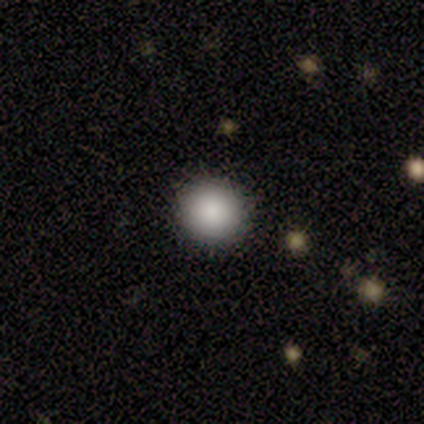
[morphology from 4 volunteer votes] This is clearly a smooth galaxy (100%). How rounded: clearly round (100%). Merging: likely none (75%).